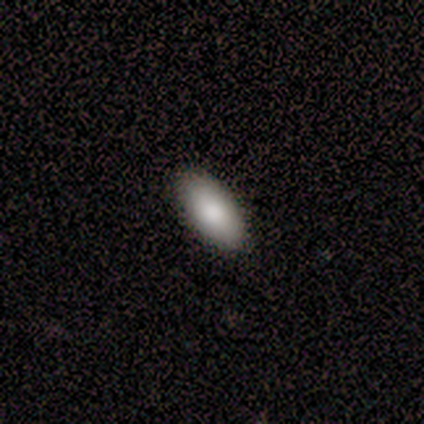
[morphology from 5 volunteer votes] Overall: smooth (100%). How rounded: in between (100%). Merging: none (100%).